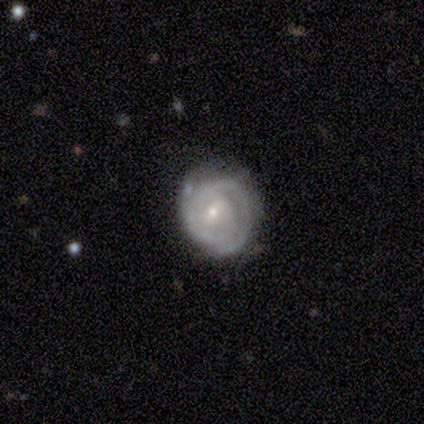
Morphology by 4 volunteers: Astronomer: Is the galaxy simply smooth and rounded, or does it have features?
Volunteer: featured or disk — 100%.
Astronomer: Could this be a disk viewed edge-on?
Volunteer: no — 100%.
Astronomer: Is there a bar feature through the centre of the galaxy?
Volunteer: weak — 50%, tied with no at 50%.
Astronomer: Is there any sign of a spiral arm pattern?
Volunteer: yes — 100%.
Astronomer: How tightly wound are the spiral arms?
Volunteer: tight — 75%.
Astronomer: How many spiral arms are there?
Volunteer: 2 — 75%.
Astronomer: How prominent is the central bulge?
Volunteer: small — 100%.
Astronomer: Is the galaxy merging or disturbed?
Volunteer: none — 50%.